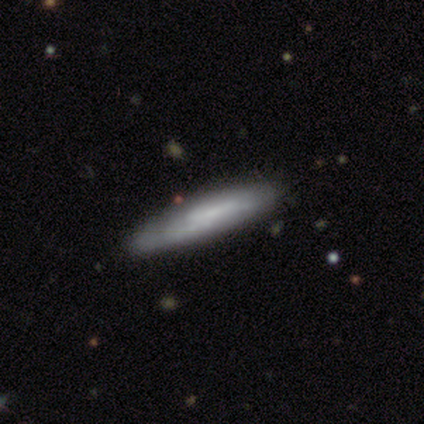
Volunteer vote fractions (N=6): This appears to be a smooth galaxy with no disk features (67%) that is cigar-shaped (75%). Merging: none (83%).